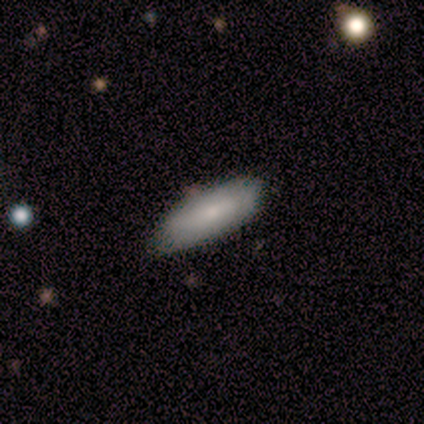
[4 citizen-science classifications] Smooth or featured?
  - smooth: 75% *
  - featured or disk: 25%
  - star or artifact: 0%
How rounded?
  - in between: 67% *
  - cigar-shaped: 33%
  - round: 0%
Merging?
  - none: 100% *
  - minor disturbance: 0%
  - major disturbance: 0%
  - merger: 0%